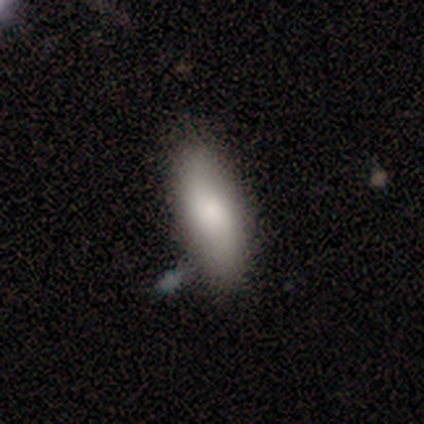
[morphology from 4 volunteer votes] Volunteers were most divided on "how rounded": in between: 67%, cigar-shaped: 33%, round: 0%. More confident: smooth or featured — smooth (75%); merging — none (67%).